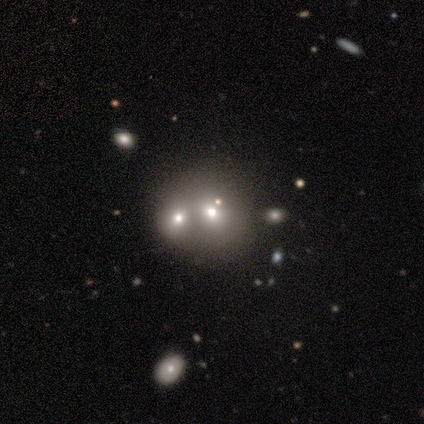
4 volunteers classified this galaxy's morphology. Volunteers were most divided on "how rounded": round: 67%, in between: 33%, cigar-shaped: 0%. More confident: smooth or featured — smooth (75%); merging — merger (67%).